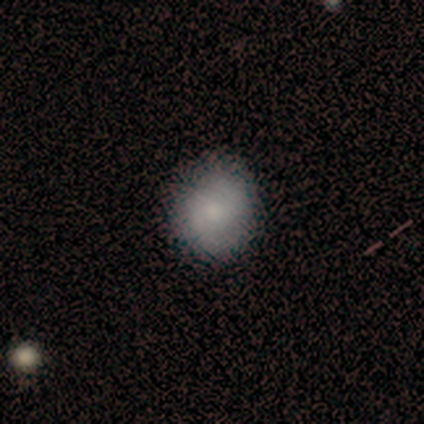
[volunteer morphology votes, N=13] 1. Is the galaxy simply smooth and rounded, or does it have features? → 69% smooth, 15% featured or disk, 15% star or artifact.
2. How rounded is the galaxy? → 56% round, 44% in between, 0% cigar-shaped.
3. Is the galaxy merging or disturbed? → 64% none, 36% minor disturbance, 0% major disturbance, 0% merger.